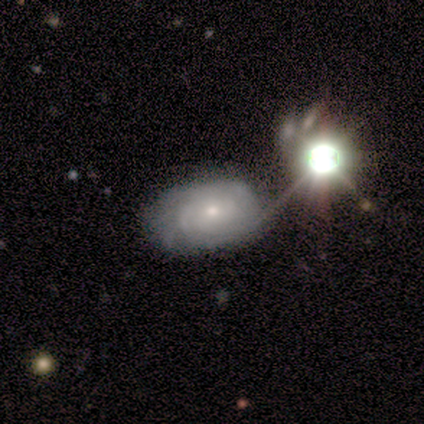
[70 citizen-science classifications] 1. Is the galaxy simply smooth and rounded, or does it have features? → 76% featured or disk, 13% star or artifact, 11% smooth.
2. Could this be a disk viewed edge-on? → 98% no, 2% yes.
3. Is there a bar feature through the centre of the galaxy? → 88% no, 10% weak, 2% strong.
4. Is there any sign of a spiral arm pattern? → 96% yes, 4% no.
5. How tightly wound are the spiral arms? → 72% tight, 20% medium, 8% loose.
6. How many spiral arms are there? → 62% can't tell, 14% 3, 10% 2, 6% 4, 4% 1, 4% more than 4.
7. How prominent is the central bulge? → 62% small, 38% moderate, 0% dominant, 0% large, 0% none.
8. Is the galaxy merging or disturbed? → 62% none, 23% minor disturbance, 8% merger, 7% major disturbance.